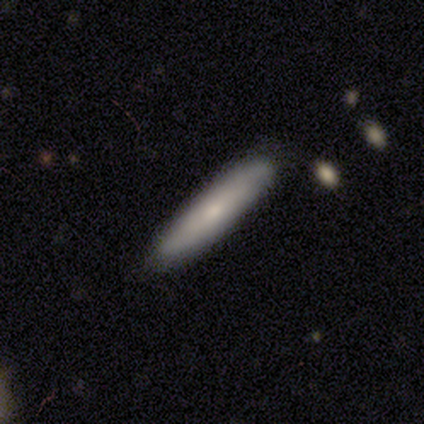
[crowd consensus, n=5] A smooth galaxy with no disk features (60%) that is cigar-shaped (100%).

Vote fractions:
- Smooth or featured? smooth: 60% / featured or disk: 40% / star or artifact: 0%
- How rounded? cigar-shaped: 100% / round: 0% / in between: 0%
- Merging? none: 100% / minor disturbance: 0% / major disturbance: 0% / merger: 0%